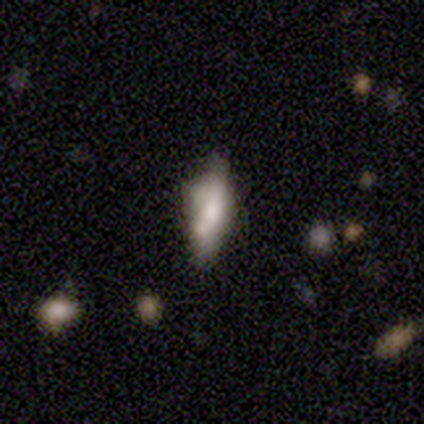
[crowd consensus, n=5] This is clearly a featured or disk galaxy (80%). It is likely viewed edge-on (75%). Edge-on bulge: clearly rounded (100%). Merging: marginally none (40%, tied with major disturbance).